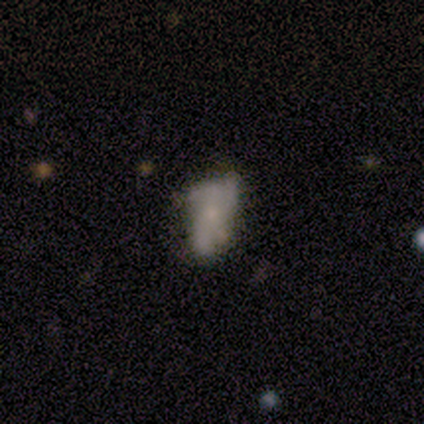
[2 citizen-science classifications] A featured or disk galaxy (100%) with no bar (100%), no spiral arms (100%) and a small central bulge (50%, tied with none). Merging: none (100%).